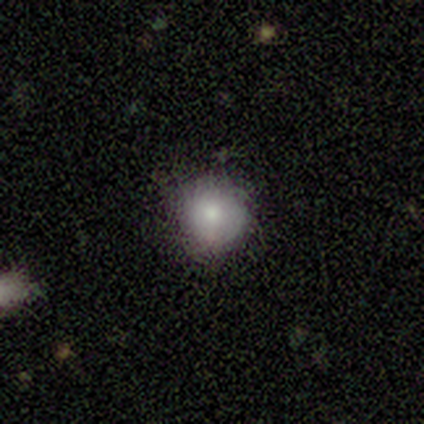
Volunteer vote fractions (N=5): smooth 80%, featured or disk 20%, star or artifact 0%. Down the decision tree: how rounded — round (100%); merging — none (80%).